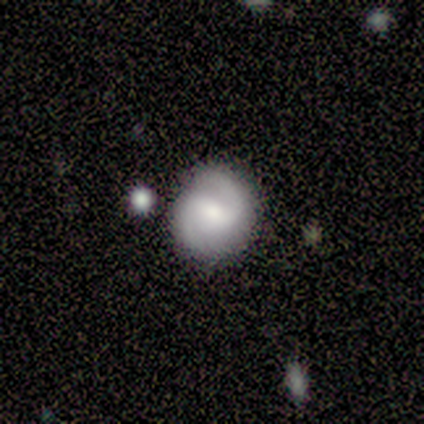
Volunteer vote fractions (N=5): This is clearly a featured or disk galaxy (80%). It is clearly not viewed edge-on (100%). Bar: possibly strong (50%, tied with weak). Spiral arm pattern: clearly yes (100%). Spiral arm count: clearly 2 (100%). Spiral winding: possibly medium (50%). Central bulge: possibly large (50%). Merging: clearly none (80%).